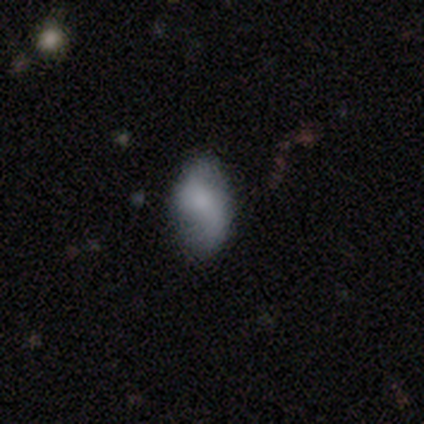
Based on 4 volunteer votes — A smooth galaxy with no disk features (75%) that is round (33%, tied with in between and cigar-shaped).

Vote fractions:
- Smooth or featured? smooth: 75% / star or artifact: 25% / featured or disk: 0%
- How rounded? round: 33% (tied) / in between: 33% (tied) / cigar-shaped: 33% (tied)
- Merging? none: 100% / minor disturbance: 0% / major disturbance: 0% / merger: 0%